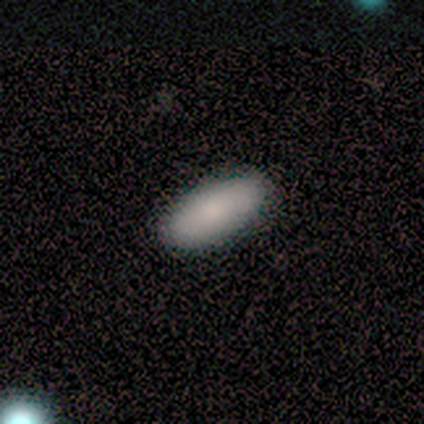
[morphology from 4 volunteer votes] Smooth or featured? 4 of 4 (100%) said smooth. How rounded? 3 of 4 (75%) said in between. Merging? 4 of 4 (100%) said none.